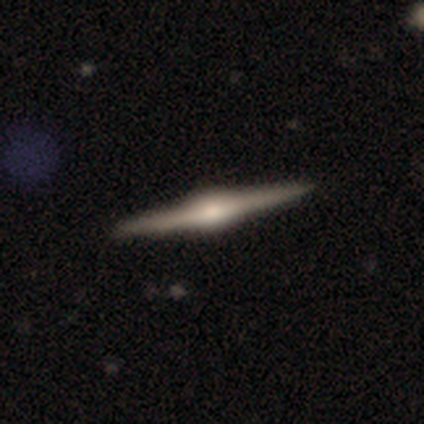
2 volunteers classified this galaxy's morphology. This appears to be a featured or disk galaxy (100%) viewed edge-on (100%) with a rounded central bulge (100%). Merging: none (50%, tied with minor disturbance).